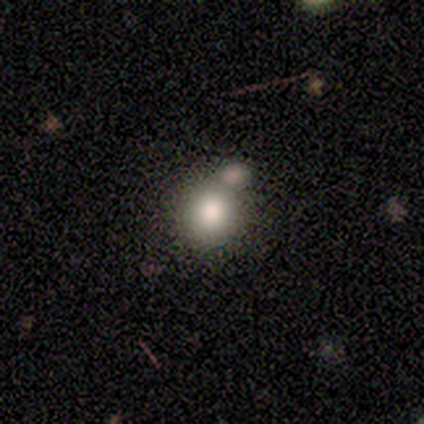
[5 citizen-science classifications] Q: Smooth or featured?
A: smooth (100%)
Q: How rounded?
A: round (100%)
Q: Merging?
A: none (80%); runner-up: merger (20%)